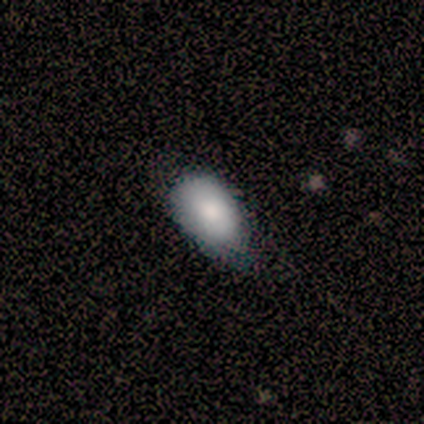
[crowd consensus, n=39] Morphology: type=smooth (82%); roundness=in between (94%); merging=minor disturbance (53%).